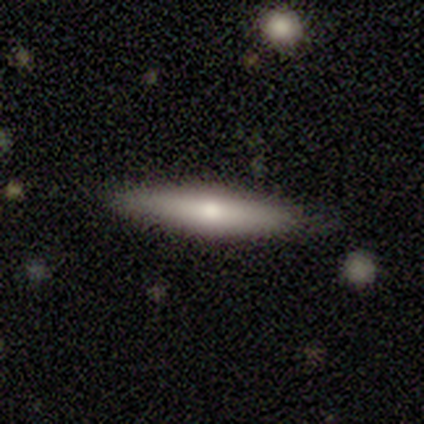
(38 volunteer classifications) Smooth or featured? 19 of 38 (50%) said featured or disk. Edge-on disk? 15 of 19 (79%) said yes. Edge-on bulge? 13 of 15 (87%) said rounded. Merging? 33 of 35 (94%) said none.